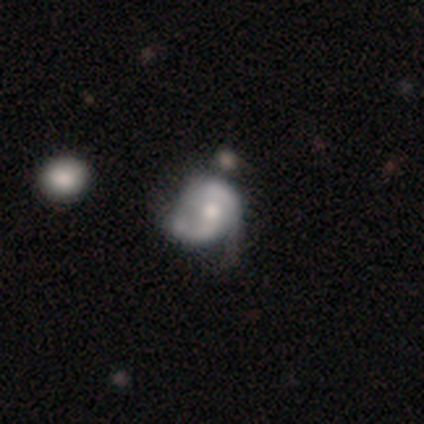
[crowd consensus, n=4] smooth-or-featured: smooth: 50% (tied) | featured or disk: 50% (tied) | star or artifact: 0%
  how-rounded: in between: 100% | round: 0% | cigar-shaped: 0%
  merging: none: 25% (tied) | minor disturbance: 25% (tied) | major disturbance: 25% (tied) | merger: 25% (tied)